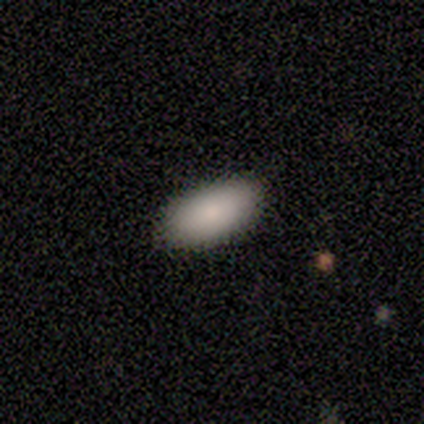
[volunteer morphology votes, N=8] Overall: smooth (75%). How rounded: in between (100%). Merging: none (100%).